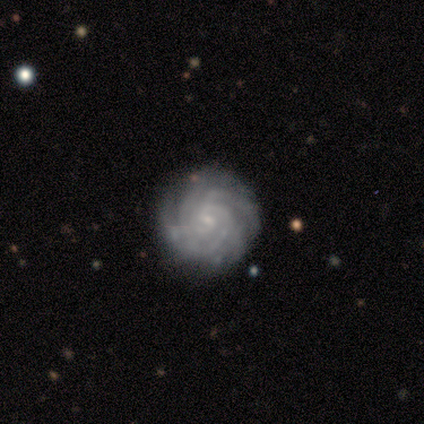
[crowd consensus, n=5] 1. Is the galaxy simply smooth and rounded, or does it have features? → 80% featured or disk, 20% star or artifact, 0% smooth.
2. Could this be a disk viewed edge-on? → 100% no, 0% yes.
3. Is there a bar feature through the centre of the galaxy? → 50% weak (tied), 50% no (tied), 0% strong.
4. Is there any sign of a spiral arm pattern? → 100% yes, 0% no.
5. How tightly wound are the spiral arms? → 100% tight, 0% medium, 0% loose.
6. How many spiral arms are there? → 25% 3 (tied), 25% 4 (tied), 25% more than 4 (tied), 25% can't tell (tied), 0% 1, 0% 2.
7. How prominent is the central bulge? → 100% small, 0% dominant, 0% large, 0% moderate, 0% none.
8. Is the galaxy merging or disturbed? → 75% none, 25% minor disturbance, 0% major disturbance, 0% merger.